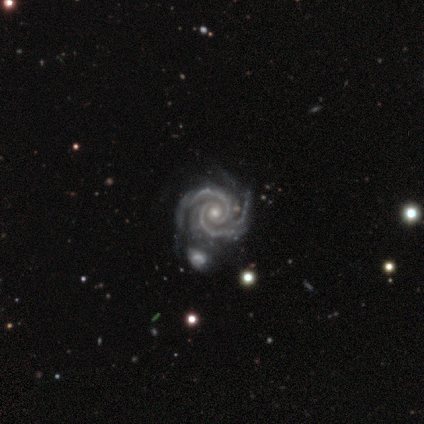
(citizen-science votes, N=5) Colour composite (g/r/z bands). It shows a featured or disk galaxy (100%) with no bar (60%), 2 (80%) tight (100%) spiral arms (100%) and a moderate central bulge (60%). Merging: none (40%, tied with minor disturbance).